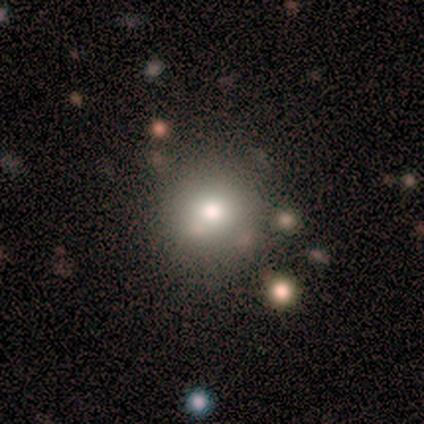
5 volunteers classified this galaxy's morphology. Q: Smooth or featured?
A: smooth (60%); runner-up: star or artifact (40%)
Q: How rounded?
A: round (67%); runner-up: in between (33%)
Q: Merging?
A: none (100%)